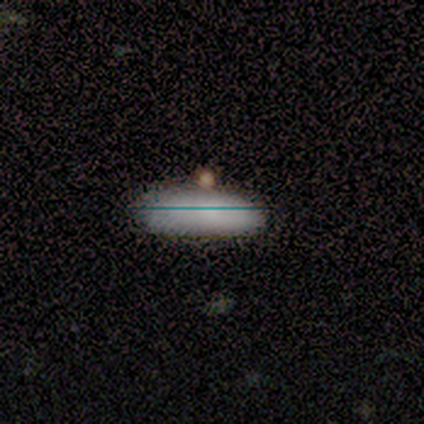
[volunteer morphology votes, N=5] type=smooth (60%); roundness=cigar-shaped (67%); merging=minor disturbance (100%).